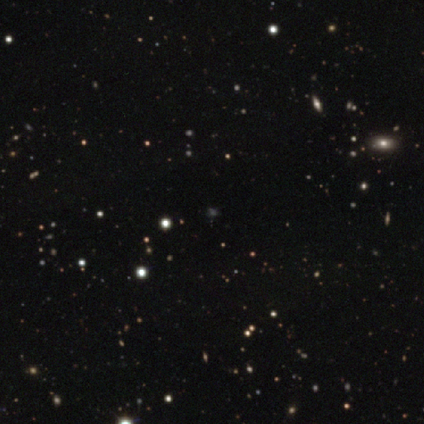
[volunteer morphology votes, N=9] Smooth or featured: star or artifact — 67% (smooth — 33%)